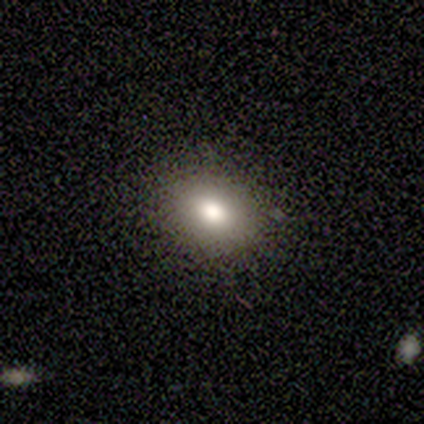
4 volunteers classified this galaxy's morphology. type=smooth (50%); roundness=round (50%, tied with in between); merging=none (67%).